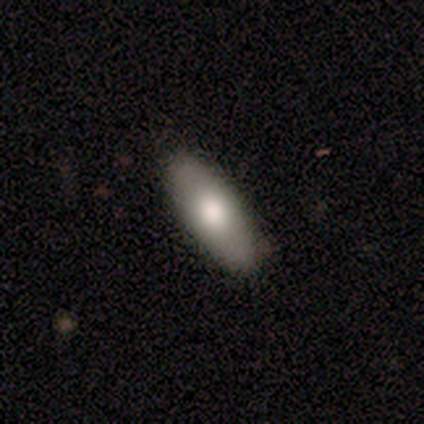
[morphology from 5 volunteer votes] Overall: smooth (100%). How rounded: in between (80%). Merging: none (80%).